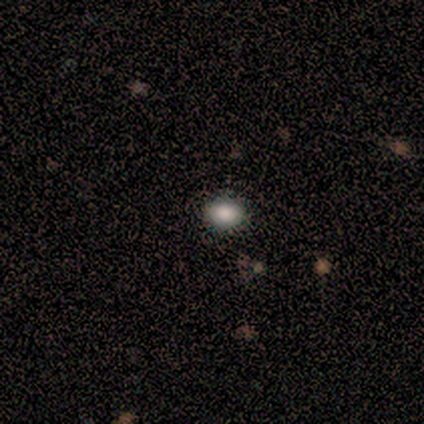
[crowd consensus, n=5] Overall: smooth (40%, tied with star or artifact). How rounded: in between (100%). Merging: none (67%; minor disturbance 33%).